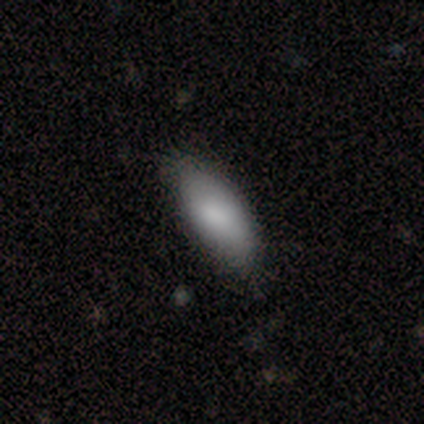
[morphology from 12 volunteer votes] Overall: smooth (83%). How rounded: in between (80%). Merging: none (91%).